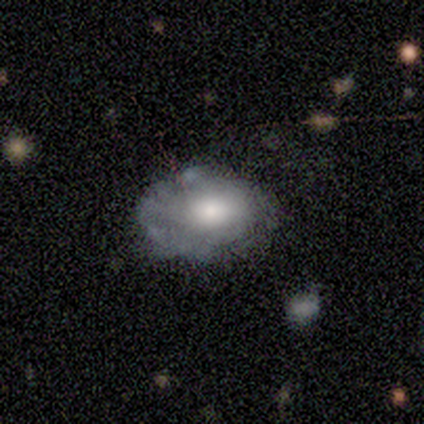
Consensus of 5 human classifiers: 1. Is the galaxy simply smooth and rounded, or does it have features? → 80% featured or disk, 20% smooth, 0% star or artifact.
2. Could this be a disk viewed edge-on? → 100% no, 0% yes.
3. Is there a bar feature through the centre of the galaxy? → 75% no, 25% strong, 0% weak.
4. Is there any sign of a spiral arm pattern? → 75% no, 25% yes.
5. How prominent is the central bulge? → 50% moderate, 25% large, 25% small, 0% dominant, 0% none.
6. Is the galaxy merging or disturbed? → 60% minor disturbance, 20% none, 20% major disturbance, 0% merger.